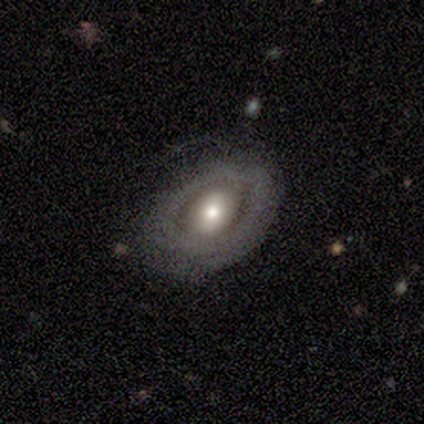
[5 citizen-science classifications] This appears to be a smooth galaxy with no disk features (60%) that is round (67%). Merging: none (100%).